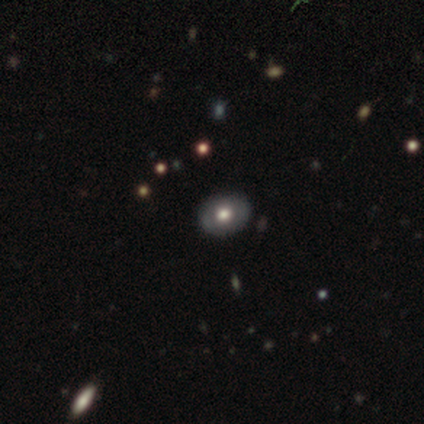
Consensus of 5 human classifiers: Volunteers were most divided on "smooth or featured": smooth: 60%, featured or disk: 40%, star or artifact: 0%. More confident: how rounded — in between (100%); merging — none (100%).